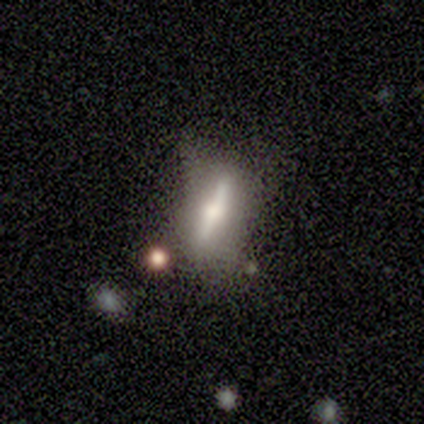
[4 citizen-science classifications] Q: Smooth or featured?
A: featured or disk (75%); runner-up: smooth (25%)
Q: Edge-on disk?
A: yes (67%); runner-up: no (33%)
Q: Edge-on bulge?
A: rounded (100%)
Q: Merging?
A: major disturbance (50%); runner-up: none (25%)